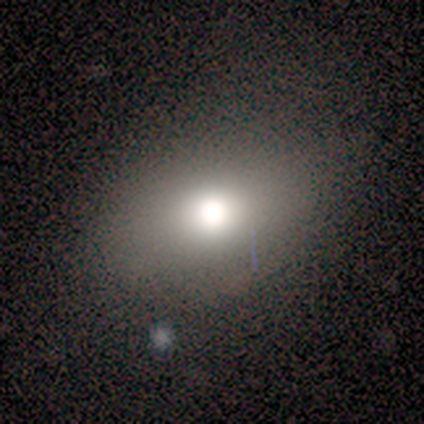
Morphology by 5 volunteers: type=smooth (80%); roundness=round (50%, tied with in between); merging=none (100%).